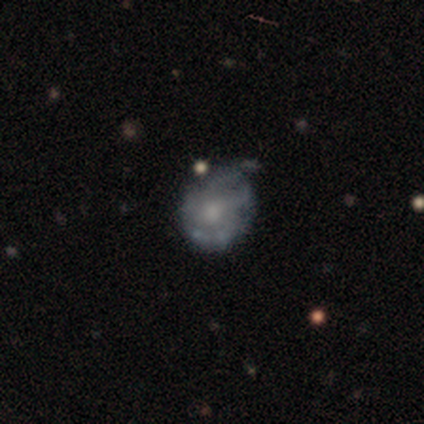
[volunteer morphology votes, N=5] smooth_or_featured: featured or disk (p=0.60) [alt: smooth p=0.40]
disk_edge_on: no (p=0.67) [alt: yes p=0.33]
bar: no (p=1.00)
has_spiral_arms: yes (p=1.00)
spiral_winding: tight (p=1.00)
spiral_arm_count: 3 (p=0.50) [tied with: can't tell p=0.50]
bulge_size: small (p=0.50) [tied with: none p=0.50]
merging: minor disturbance (p=0.60) [alt: none p=0.40]